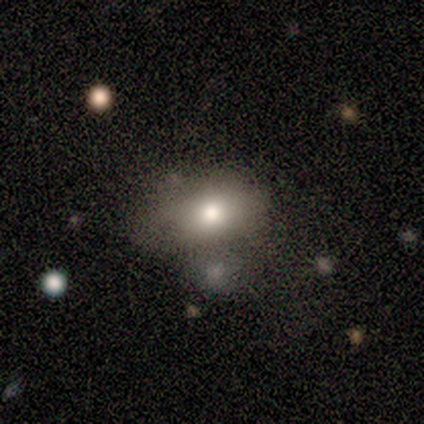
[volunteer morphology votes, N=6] type=smooth (67%); roundness=in between (100%); merging=none (33%, tied with minor disturbance).